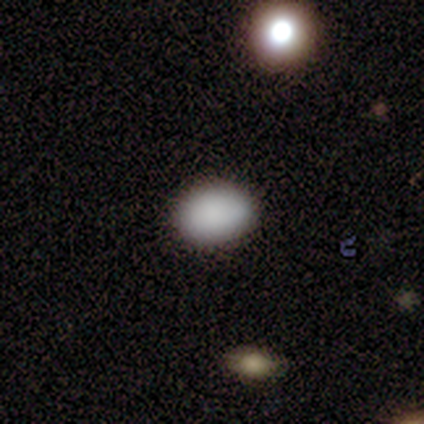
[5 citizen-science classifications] Consensus on every question: smooth or featured — smooth (100%); how rounded — in between (100%); merging — none (100%).